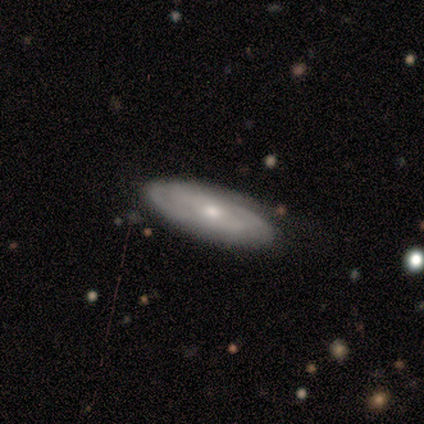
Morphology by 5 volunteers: Smooth or featured: featured or disk — 60% (smooth — 40%)
Edge-on disk: no — 100%
Bar: no — 100%
Spiral arms: yes — 100%
Spiral winding: medium — 67% (tight — 33%)
Spiral arm count: 2 — 67% (can't tell — 33%)
Bulge size: moderate — 67% (small — 33%)
Merging: none — 60% (minor disturbance — 40%)